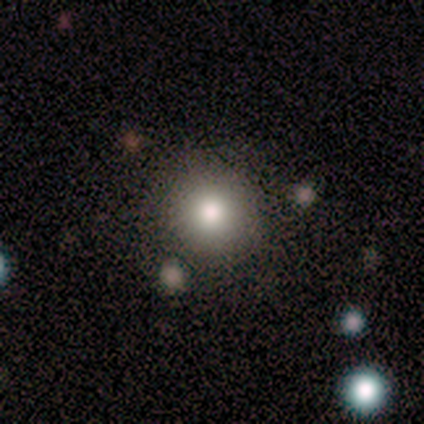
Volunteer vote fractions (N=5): This appears to be a smooth galaxy with no disk features (100%) that is round (100%). Merging: none (80%).